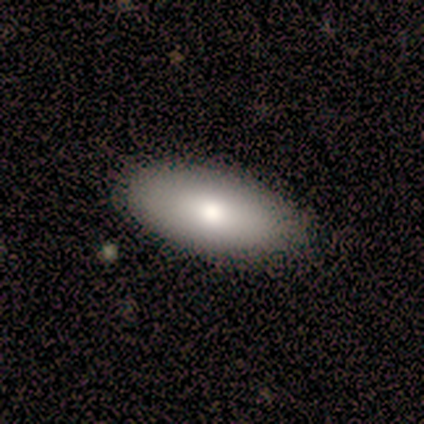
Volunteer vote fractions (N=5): Volunteers were most divided on "smooth or featured": smooth: 80%, featured or disk: 20%, star or artifact: 0%. More confident: how rounded — in between (100%); merging — none (100%).